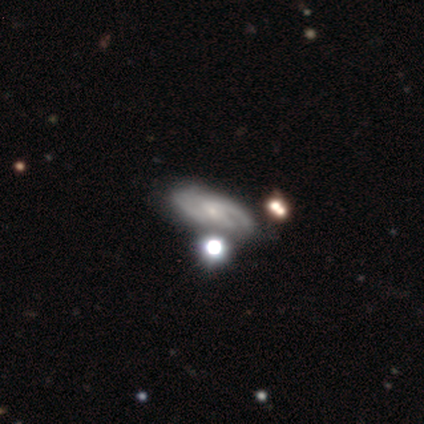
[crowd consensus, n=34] This is likely a featured or disk galaxy (76%). It is clearly not viewed edge-on (100%). Bar: likely no (73%). Spiral arm pattern: clearly yes (81%). Spiral arm count: likely 2 (76%). Spiral winding: possibly medium (57%). Central bulge: likely small (62%). Merging: possibly none (52%).